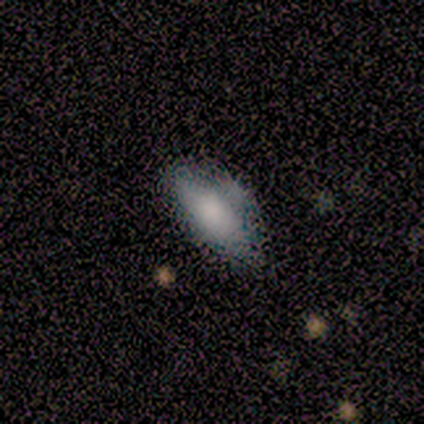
This appears to be a smooth galaxy with no disk features (60%) that is cigar-shaped (67%). Merging: none (60%).